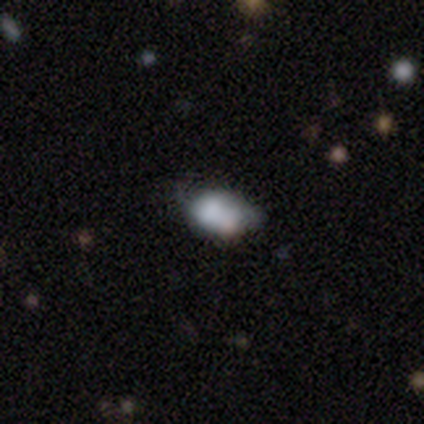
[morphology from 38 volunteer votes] A smooth galaxy with no disk features (53%) that is in between round and cigar-shaped (95%). Merging: minor disturbance (43%).